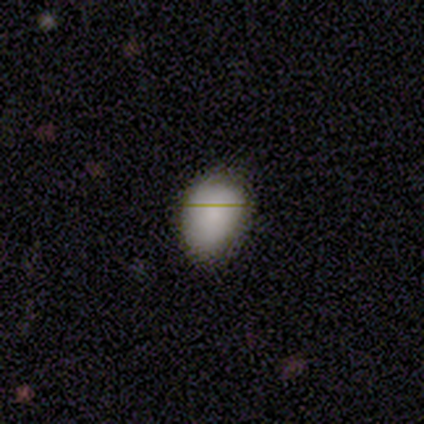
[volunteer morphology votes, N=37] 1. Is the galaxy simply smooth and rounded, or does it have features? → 86% smooth, 11% featured or disk, 3% star or artifact.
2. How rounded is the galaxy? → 84% in between, 16% round, 0% cigar-shaped.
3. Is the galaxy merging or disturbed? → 81% none, 19% minor disturbance, 0% major disturbance, 0% merger.